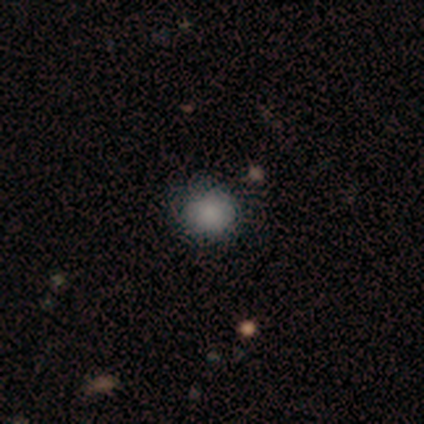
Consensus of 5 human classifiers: Smooth or featured? 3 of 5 (60%) said smooth. How rounded? 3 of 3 (100%) said round. Merging? 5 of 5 (100%) said none.